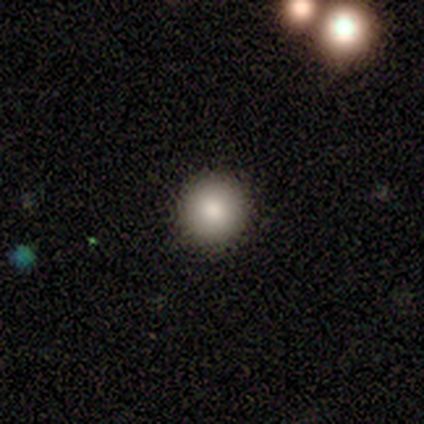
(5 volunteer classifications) smooth-or-featured: smooth: 60% | featured or disk: 20% | star or artifact: 20%
  how-rounded: round: 100% | in between: 0% | cigar-shaped: 0%
  merging: none: 100% | minor disturbance: 0% | major disturbance: 0% | merger: 0%